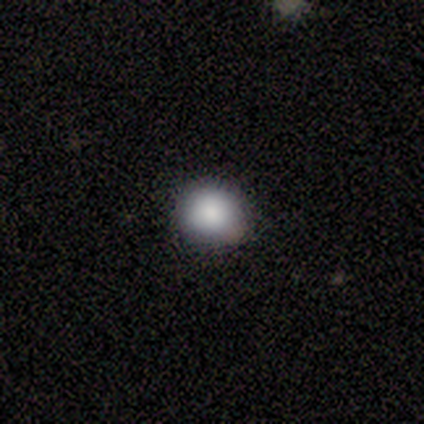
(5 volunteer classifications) This appears to be a smooth galaxy with no disk features (60%) that is round (100%). Merging: none (100%).